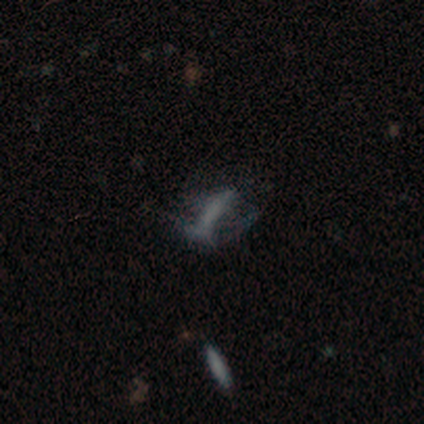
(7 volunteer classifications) This appears to be a smooth galaxy with no disk features (86%) that is in between round and cigar-shaped (50%). Merging: major disturbance (57%).